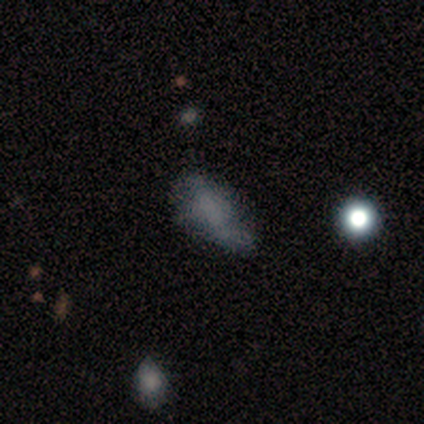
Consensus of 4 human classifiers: Smooth or featured? 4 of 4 (100%) said smooth. How rounded? 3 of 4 (75%) said in between. Merging? 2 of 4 (50%) said major disturbance.